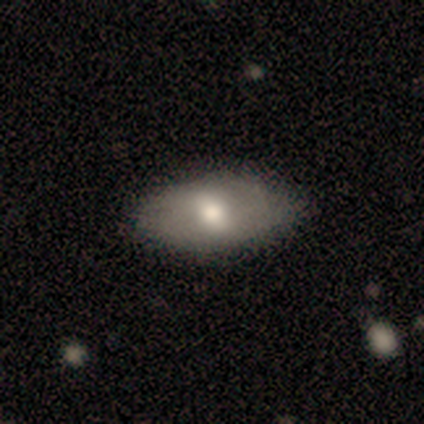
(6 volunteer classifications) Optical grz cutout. It shows a smooth galaxy with no disk features (50%, tied with featured or disk) that is in between round and cigar-shaped (100%). Merging: none (67%).